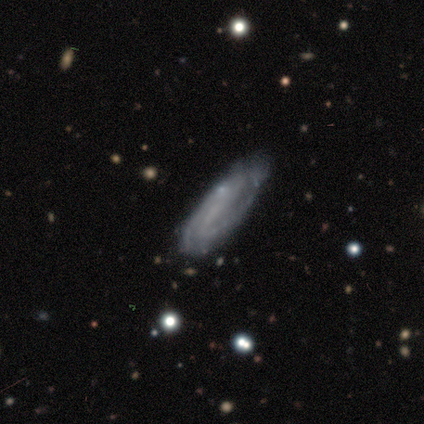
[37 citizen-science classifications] A featured or disk galaxy (73%) with no bar (52%), 2 (55%) medium (50%) spiral arms (87%) and no central bulge (74%). Merging: none (75%).